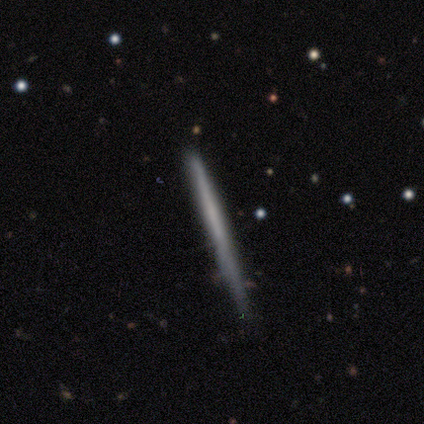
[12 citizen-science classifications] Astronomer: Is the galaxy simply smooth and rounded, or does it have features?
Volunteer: smooth — 58% (runner-up: featured or disk, 42%).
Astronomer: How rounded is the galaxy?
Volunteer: cigar-shaped — 100%.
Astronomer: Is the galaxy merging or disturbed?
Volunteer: none — 100%.